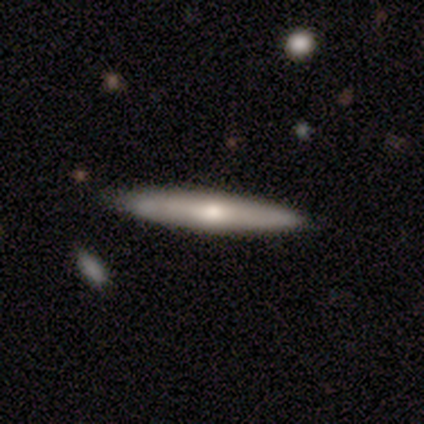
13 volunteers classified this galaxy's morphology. This is possibly a featured or disk galaxy (54%). It is possibly viewed edge-on (57%). Edge-on bulge: likely rounded (75%). Merging: clearly none (92%).